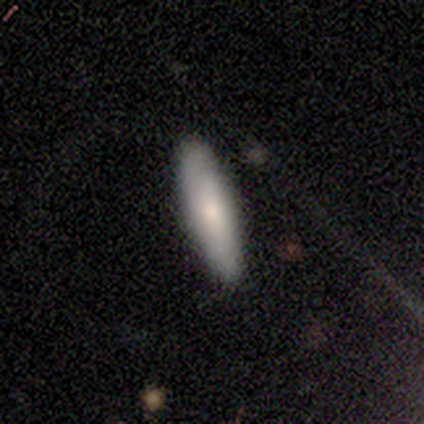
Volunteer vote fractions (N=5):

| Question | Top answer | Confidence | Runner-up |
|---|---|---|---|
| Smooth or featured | smooth | 80% | featured or disk (20%) |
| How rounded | cigar-shaped | 100% | — |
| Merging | none | 100% | — |